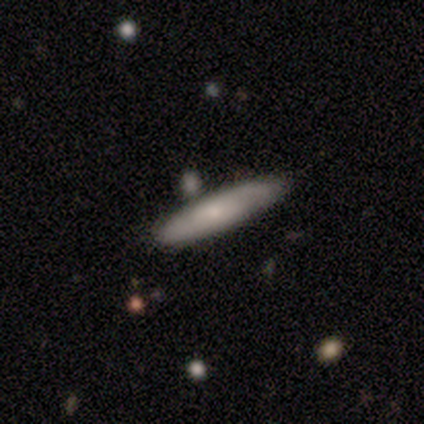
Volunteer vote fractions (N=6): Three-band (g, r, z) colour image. It shows a featured or disk galaxy (50%) with no bar (100%), 2 (100%) tight (50%, tied with medium) spiral arms (100%) and a large central bulge (50%, tied with small). Merging: none (75%).